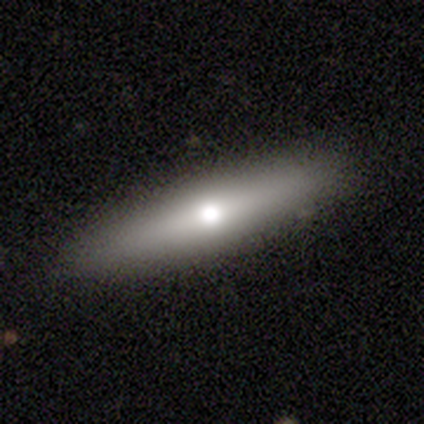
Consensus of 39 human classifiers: smooth 56%, featured or disk 41%, star or artifact 3%. Down the decision tree: how rounded — cigar-shaped (82%); merging — none (87%).